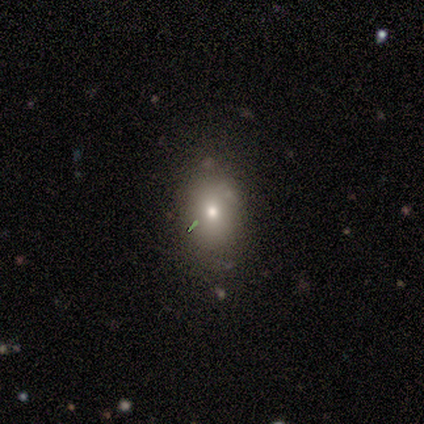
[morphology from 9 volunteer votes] smooth-or-featured: featured or disk: 56% | smooth: 44% | star or artifact: 0%
  disk-edge-on: no: 80% | yes: 20%
    bar: no: 100% | strong: 0% | weak: 0%
    has-spiral-arms: no: 100% | yes: 0%
    bulge-size: small: 50% | large: 25% | moderate: 25% | dominant: 0% | none: 0%
  merging: none: 56% | minor disturbance: 44% | major disturbance: 0% | merger: 0%